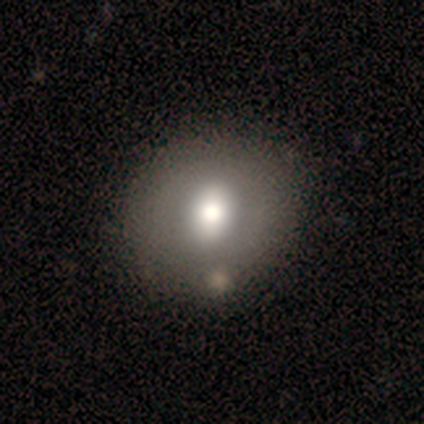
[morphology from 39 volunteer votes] smooth 64%, featured or disk 28%, star or artifact 8%. Down the decision tree: how rounded — round (88%); merging — none (61%).